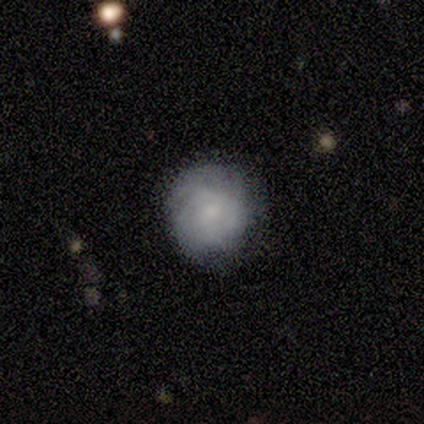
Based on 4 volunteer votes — This is possibly a smooth galaxy (50%, tied with featured or disk). How rounded: clearly round (100%). Merging: likely none (75%).